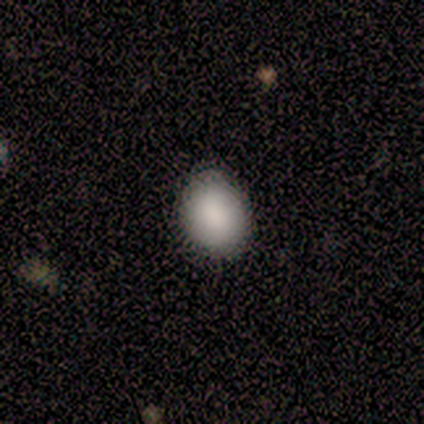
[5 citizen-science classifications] A smooth galaxy with no disk features (100%) that is in between round and cigar-shaped (60%).

Vote fractions:
- Smooth or featured? smooth: 100% / featured or disk: 0% / star or artifact: 0%
- How rounded? in between: 60% / round: 40% / cigar-shaped: 0%
- Merging? none: 80% / minor disturbance: 20% / major disturbance: 0% / merger: 0%